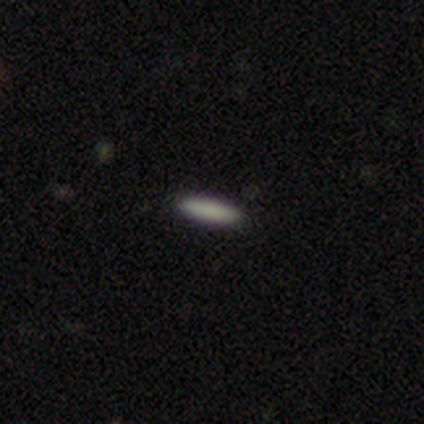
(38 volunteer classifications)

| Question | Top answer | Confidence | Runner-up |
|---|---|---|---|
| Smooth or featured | smooth | 89% | featured or disk (8%) |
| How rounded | cigar-shaped | 85% | in between (12%) |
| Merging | none | 86% | minor disturbance (8%) |